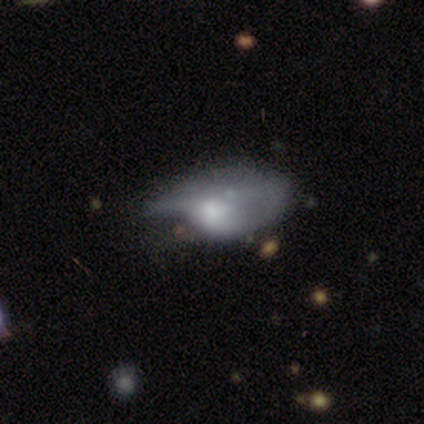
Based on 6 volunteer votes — A featured or disk galaxy (67%) with no bar (100%), no spiral arms (100%) and a moderate central bulge (75%). Merging: major disturbance (50%).